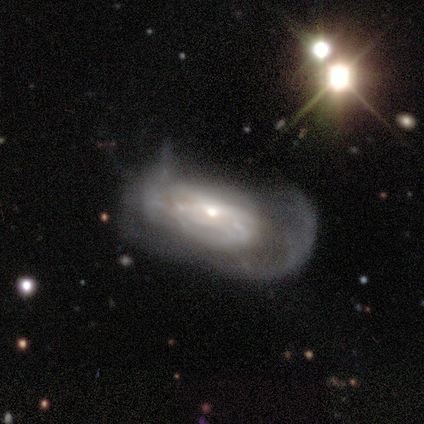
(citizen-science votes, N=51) Smooth or featured? 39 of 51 (76%) said featured or disk. Edge-on disk? 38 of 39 (97%) said no. Bar? 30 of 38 (79%) said no. Spiral arms? 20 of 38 (53%) said yes. Spiral winding? 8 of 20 (40%) said tight. Spiral arm count? 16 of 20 (80%) said can't tell. Bulge size? 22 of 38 (58%) said small. Merging? 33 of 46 (72%) said major disturbance.